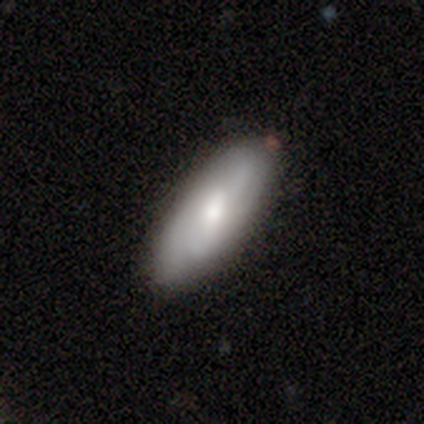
smooth-or-featured: smooth: 56% | featured or disk: 44% | star or artifact: 0%
  how-rounded: in between: 80% | cigar-shaped: 20% | round: 0%
  merging: none: 78% | minor disturbance: 22% | major disturbance: 0% | merger: 0%